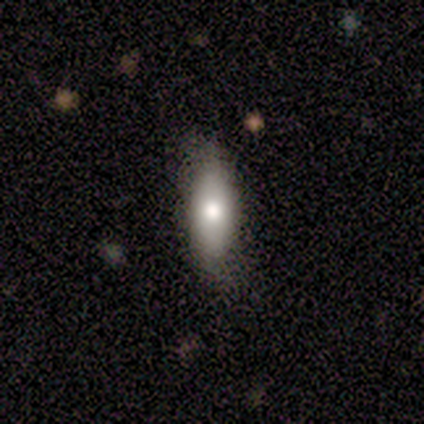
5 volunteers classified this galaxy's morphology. Overall: smooth (80%). How rounded: in between (75%). Merging: none (75%).